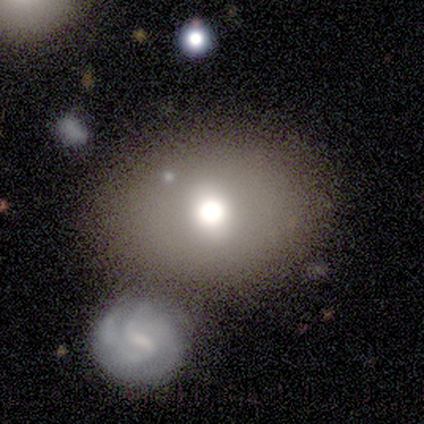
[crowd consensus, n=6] Smooth or featured? 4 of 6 (67%) said smooth. How rounded? 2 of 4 (50%, tied with in between) said round. Merging? 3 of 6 (50%) said merger.